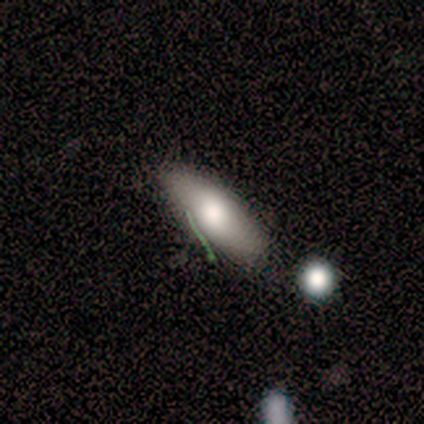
A smooth galaxy with no disk features (88%) that is in between round and cigar-shaped (57%).

Vote fractions:
- Smooth or featured? smooth: 88% / featured or disk: 12% / star or artifact: 0%
- How rounded? in between: 57% / cigar-shaped: 43% / round: 0%
- Merging? none: 75% / major disturbance: 12% / merger: 12% / minor disturbance: 0%